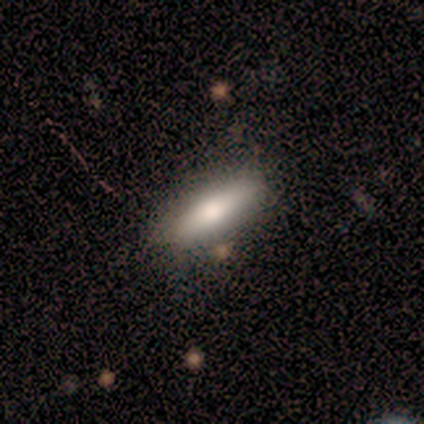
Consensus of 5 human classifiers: Smooth or featured?
  - smooth: 40% * (tied)
  - featured or disk: 40% * (tied)
  - star or artifact: 20%
How rounded?
  - in between: 50% * (tied)
  - cigar-shaped: 50% * (tied)
  - round: 0%
Merging?
  - none: 75% *
  - minor disturbance: 25%
  - major disturbance: 0%
  - merger: 0%